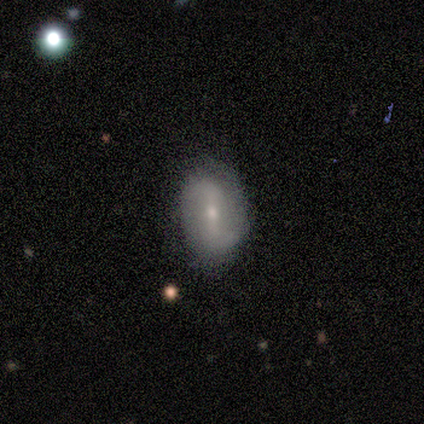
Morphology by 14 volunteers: Overall: featured or disk (64%; smooth 36%). Edge-on disk: no (100%). Bar: weak (44%; strong 33%). Spiral arms: yes (89%). Spiral arm count: 2 (88%). Spiral winding: loose (62%; medium 38%). Bulge size: small (78%). Merging: none (93%).